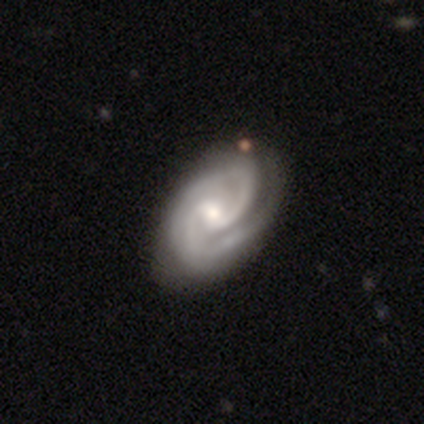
Smooth or featured?
  - featured or disk: 92% *
  - star or artifact: 5%
  - smooth: 3%
Edge-on disk?
  - no: 96% *
  - yes: 4%
Bar?
  - weak: 57% *
  - no: 37%
  - strong: 6%
Spiral arms?
  - yes: 97% *
  - no: 3%
Spiral winding?
  - tight: 69% *
  - medium: 28%
  - loose: 3%
Spiral arm count?
  - 2: 78% *
  - 3: 11%
  - 1: 5%
  - can't tell: 5%
  - 4: 2%
  - more than 4: 0%
Bulge size?
  - moderate: 60% *
  - small: 33%
  - large: 7%
  - dominant: 0%
  - none: 0%
Merging?
  - none: 71% *
  - minor disturbance: 19%
  - major disturbance: 8%
  - merger: 1%